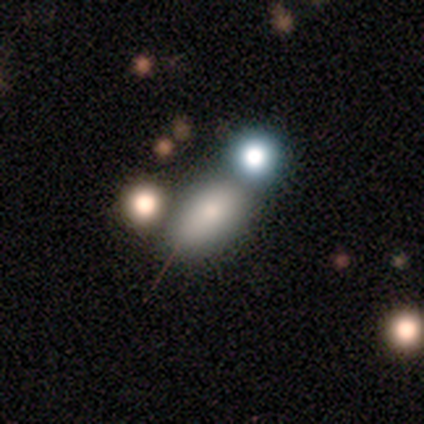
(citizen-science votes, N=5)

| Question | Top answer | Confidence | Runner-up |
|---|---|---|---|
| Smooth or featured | smooth | 60% | star or artifact (40%) |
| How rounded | in between | 67% | round (33%) |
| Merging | none | 67% | merger (33%) |